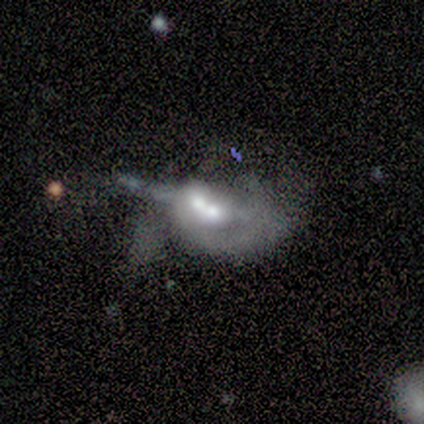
A featured or disk galaxy (80%) with no bar (100%), 2 (50%, tied with can't tell) loose (100%) spiral arms (67%) and a moderate central bulge (100%).

Vote fractions:
- Smooth or featured? featured or disk: 80% / smooth: 20% / star or artifact: 0%
- Edge-on disk? no: 75% / yes: 25%
- Bar? no: 100% / strong: 0% / weak: 0%
- Spiral arms? yes: 67% / no: 33%
- Spiral winding? loose: 100% / tight: 0% / medium: 0%
- Spiral arm count? 2: 50% (tied) / can't tell: 50% (tied) / 1: 0% / 3: 0% / 4: 0% / more than 4: 0%
- Bulge size? moderate: 100% / dominant: 0% / large: 0% / small: 0% / none: 0%
- Merging? merger: 100% / none: 0% / minor disturbance: 0% / major disturbance: 0%